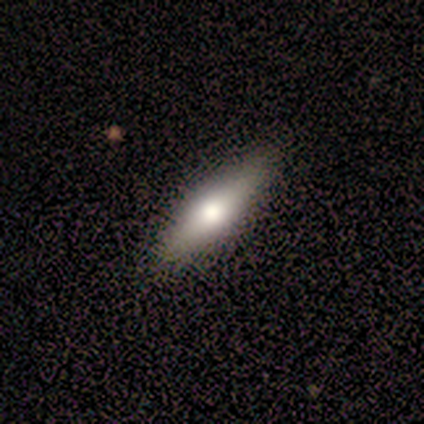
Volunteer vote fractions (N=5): A smooth galaxy with no disk features (60%) that is round (67%).

Vote fractions:
- Smooth or featured? smooth: 60% / featured or disk: 40% / star or artifact: 0%
- How rounded? round: 67% / in between: 33% / cigar-shaped: 0%
- Merging? none: 80% / merger: 20% / minor disturbance: 0% / major disturbance: 0%